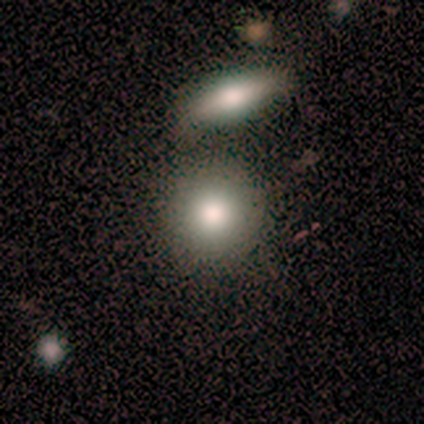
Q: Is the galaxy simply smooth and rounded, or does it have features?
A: smooth — 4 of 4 (100%).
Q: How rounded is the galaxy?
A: round — 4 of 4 (100%).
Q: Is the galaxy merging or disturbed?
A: none — 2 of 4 (50%, tied with merger).